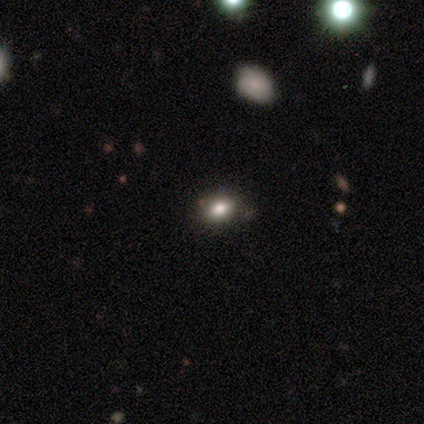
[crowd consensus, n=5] Smooth or featured?
  - smooth: 60% *
  - featured or disk: 40%
  - star or artifact: 0%
How rounded?
  - in between: 67% *
  - round: 33%
  - cigar-shaped: 0%
Merging?
  - none: 80% *
  - merger: 20%
  - minor disturbance: 0%
  - major disturbance: 0%